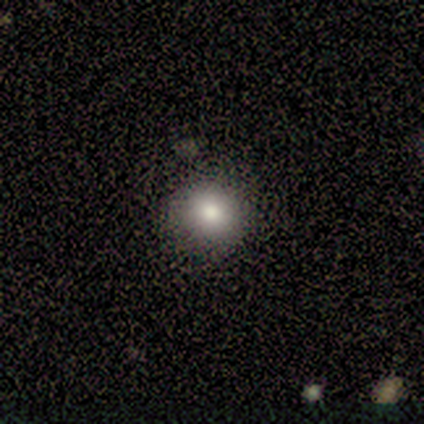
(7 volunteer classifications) Smooth or featured: smooth — 43% (featured or disk — 29%)
How rounded: round — 67% (in between — 33%)
Merging: none — 60% (minor disturbance — 40%)